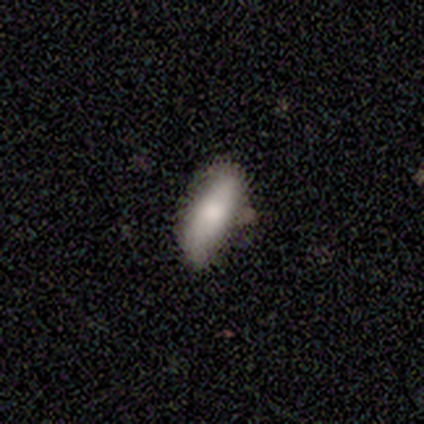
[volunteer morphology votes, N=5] Smooth or featured: smooth — 100%
How rounded: in between — 100%
Merging: none — 100%